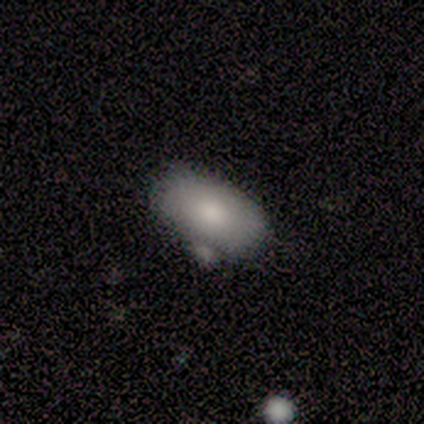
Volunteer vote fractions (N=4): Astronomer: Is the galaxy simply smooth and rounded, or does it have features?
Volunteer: smooth — 75%.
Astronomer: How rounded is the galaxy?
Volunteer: in between — 100%.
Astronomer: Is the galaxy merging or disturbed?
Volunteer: none — 50%, tied with minor disturbance at 50%.